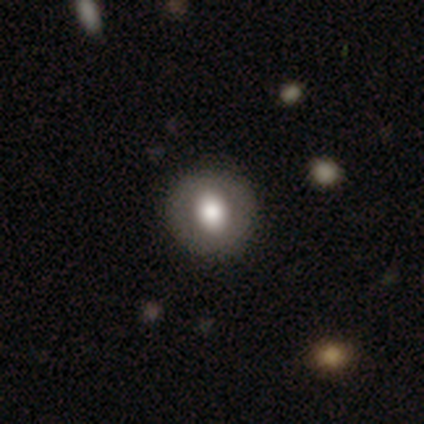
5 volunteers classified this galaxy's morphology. Smooth or featured? smooth (60%)
How rounded? round (67%)
Merging? none (50%)